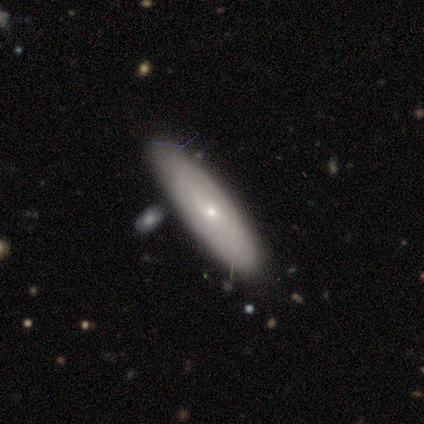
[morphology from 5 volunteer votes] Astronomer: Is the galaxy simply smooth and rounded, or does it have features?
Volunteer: featured or disk — 60% (runner-up: smooth, 40%).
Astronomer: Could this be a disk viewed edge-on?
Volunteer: no — 67%.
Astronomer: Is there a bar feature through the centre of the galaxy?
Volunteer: weak — 100%.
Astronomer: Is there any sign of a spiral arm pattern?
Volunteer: yes — 50%, tied with no at 50%.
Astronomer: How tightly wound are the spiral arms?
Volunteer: medium — 100%.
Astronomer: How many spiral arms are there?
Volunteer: can't tell — 100%.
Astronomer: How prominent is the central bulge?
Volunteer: small — 50%, tied with none at 50%.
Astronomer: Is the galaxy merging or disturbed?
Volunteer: none — 60%.